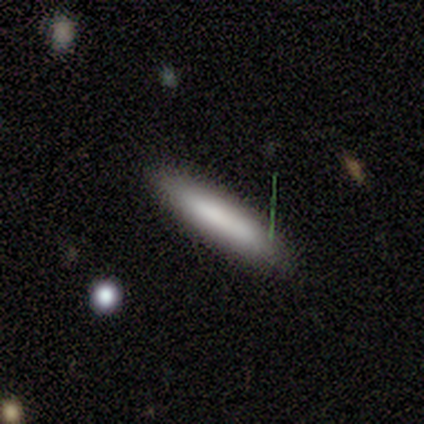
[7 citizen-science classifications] Smooth or featured? smooth (100%)
How rounded? cigar-shaped (57%)
Merging? none (100%)